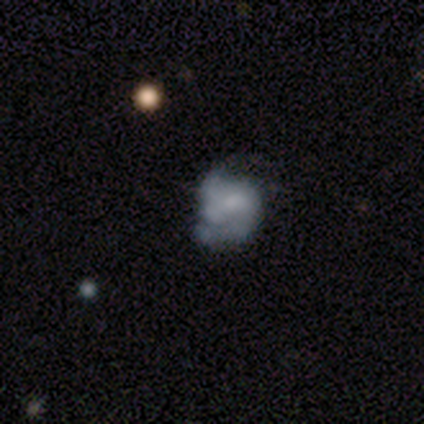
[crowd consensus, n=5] Morphology: type=featured or disk (80%); edge-on=no (100%); bar=no (100%); spiral arms=yes (50%, tied with no); winding=medium (50%, tied with loose); arm count=2 (50%, tied with can't tell); bulge=none (50%); merging=major disturbance (80%).